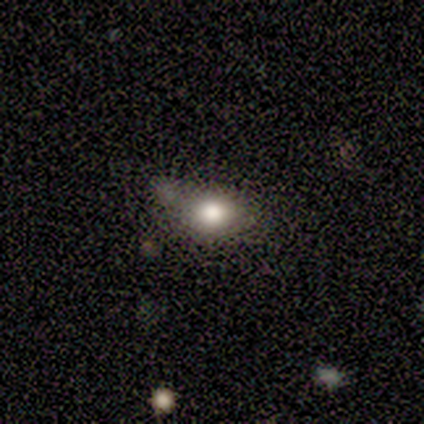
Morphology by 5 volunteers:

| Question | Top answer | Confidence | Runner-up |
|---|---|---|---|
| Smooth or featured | smooth | 40% | tied: star or artifact (40%) |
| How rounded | round | 50% | tied: in between (50%) |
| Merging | none | 67% | merger (33%) |